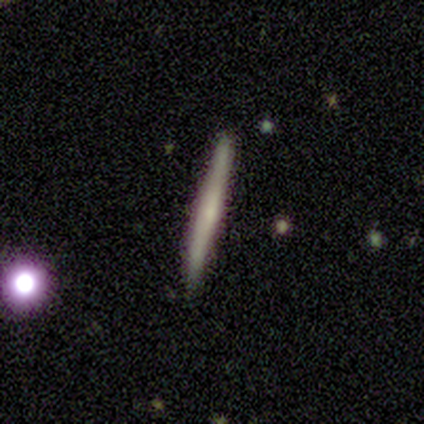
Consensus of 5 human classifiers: smooth_or_featured: featured or disk (p=0.60) [alt: smooth p=0.40]
disk_edge_on: yes (p=1.00)
edge_on_bulge: none (p=0.67) [alt: rounded p=0.33]
merging: none (p=0.60) [alt: minor disturbance p=0.40]